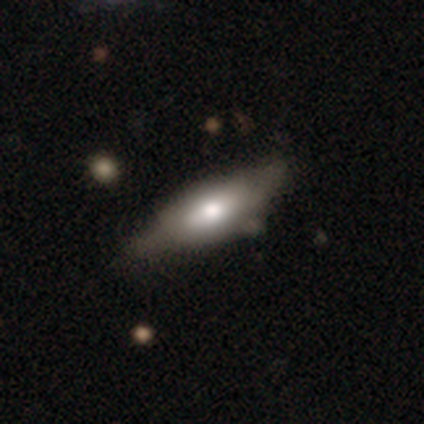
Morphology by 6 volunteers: Smooth or featured: smooth — 67% (featured or disk — 33%)
How rounded: in between — 50% (tied with cigar-shaped — 50%)
Merging: none — 67% (minor disturbance — 17%)